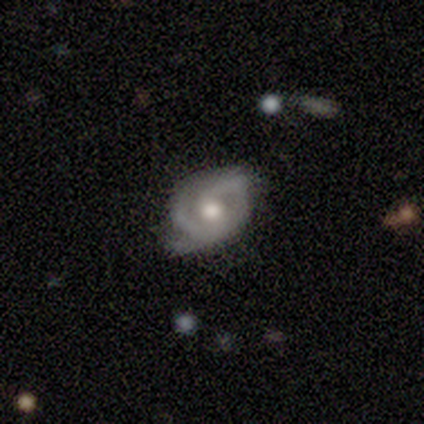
Smooth or featured?
  - featured or disk: 75% *
  - smooth: 18%
  - star or artifact: 7%
Edge-on disk?
  - no: 100% *
  - yes: 0%
Bar?
  - no: 67% *
  - weak: 31%
  - strong: 2%
Spiral arms?
  - yes: 93% *
  - no: 7%
Spiral winding?
  - medium: 59% *
  - tight: 28%
  - loose: 13%
Spiral arm count?
  - 2: 69% *
  - can't tell: 15%
  - 3: 8%
  - 1: 5%
  - 4: 3%
  - more than 4: 0%
Bulge size?
  - moderate: 60% *
  - large: 33%
  - small: 7%
  - dominant: 0%
  - none: 0%
Merging?
  - minor disturbance: 44% *
  - none: 42%
  - major disturbance: 13%
  - merger: 0%